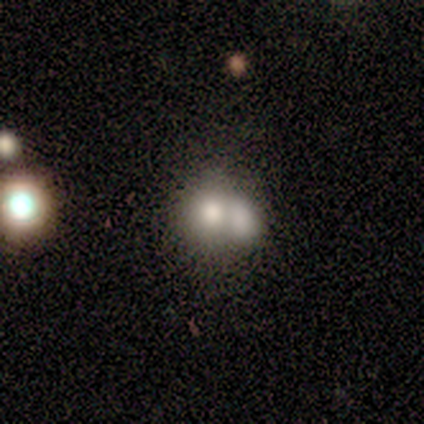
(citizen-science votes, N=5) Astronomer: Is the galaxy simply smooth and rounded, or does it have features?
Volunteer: smooth — 60% (runner-up: featured or disk, 40%).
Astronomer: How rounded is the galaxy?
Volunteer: in between — 67%.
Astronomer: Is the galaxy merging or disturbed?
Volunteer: merger — 100%.